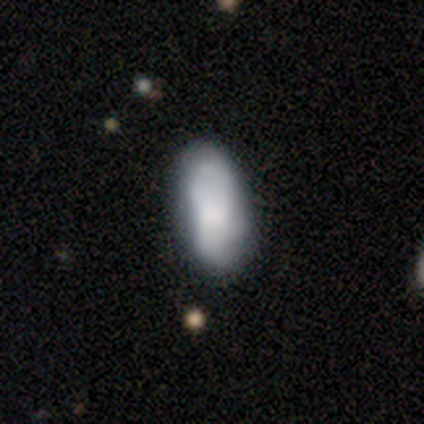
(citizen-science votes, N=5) smooth 60%, featured or disk 40%, star or artifact 0%. Down the decision tree: how rounded — in between (100%); merging — none (60%).